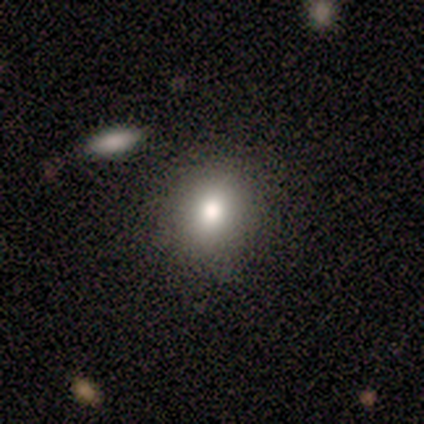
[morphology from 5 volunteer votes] Smooth or featured? smooth (80%)
How rounded? round (50%, tied with in between)
Merging? none (80%)